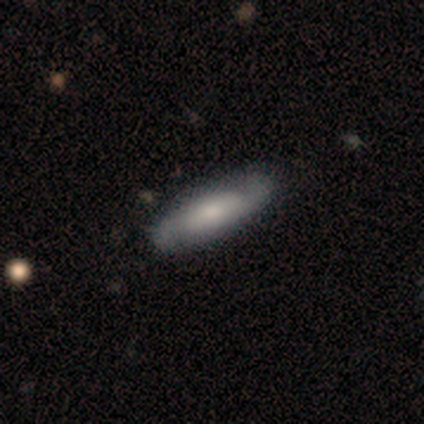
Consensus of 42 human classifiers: Smooth or featured? 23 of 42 (55%) said featured or disk. Edge-on disk? 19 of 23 (83%) said no. Bar? 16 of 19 (84%) said no. Spiral arms? 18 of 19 (95%) said yes. Spiral winding? 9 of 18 (50%) said medium. Spiral arm count? 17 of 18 (94%) said 2. Bulge size? 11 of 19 (58%) said moderate. Merging? 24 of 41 (59%) said none.